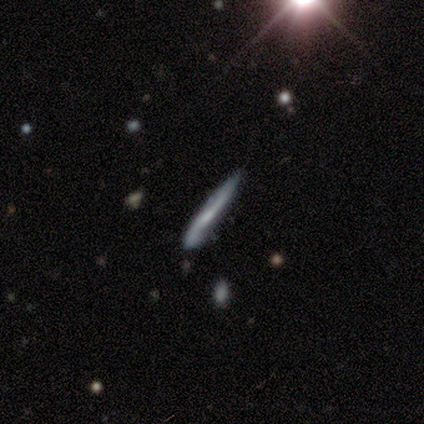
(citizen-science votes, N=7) Morphology: type=featured or disk (57%); edge-on=yes (50%, tied with no); edge-on bulge=boxy (50%, tied with none); merging=none (71%).